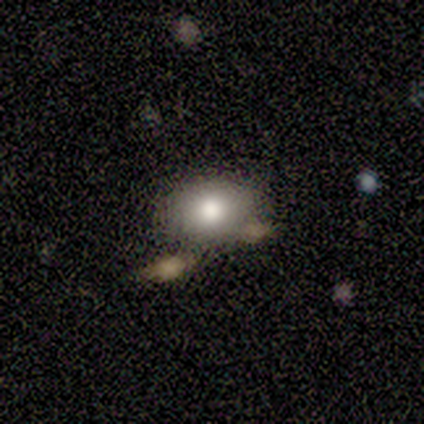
Morphology: type=smooth (60%); roundness=in between (100%); merging=none (50%).